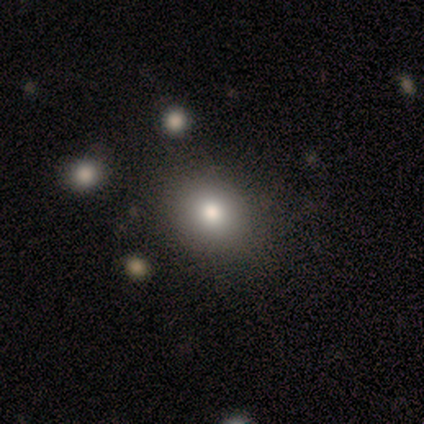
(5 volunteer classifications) Q: Smooth or featured?
A: smooth (100%)
Q: How rounded?
A: round (100%)
Q: Merging?
A: none (100%)